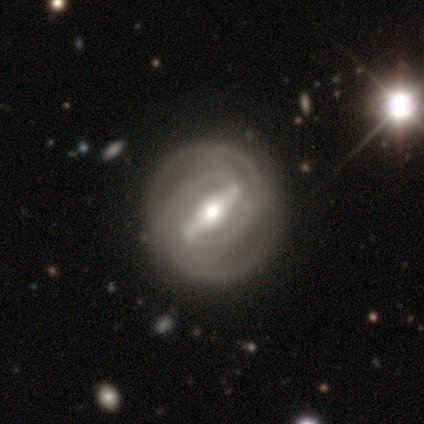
smooth_or_featured: featured or disk (p=0.84) [alt: smooth p=0.11]
disk_edge_on: no (p=0.92) [alt: yes p=0.08]
bar: strong (p=0.97) [alt: weak p=0.03]
has_spiral_arms: yes (p=0.86) [alt: no p=0.14]
spiral_winding: tight (p=0.80) [alt: medium p=0.17]
spiral_arm_count: 2 (p=0.33) [alt: 4 p=0.23]
bulge_size: moderate (p=0.60) [alt: small p=0.20]
merging: none (p=0.86) [alt: minor disturbance p=0.12]